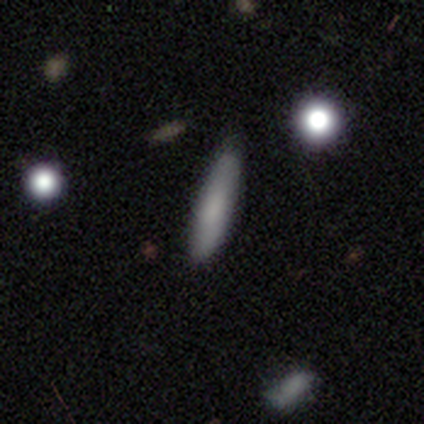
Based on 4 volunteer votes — Smooth or featured? smooth (50%, tied with star or artifact)
How rounded? in between (50%, tied with cigar-shaped)
Merging? none (50%, tied with minor disturbance)